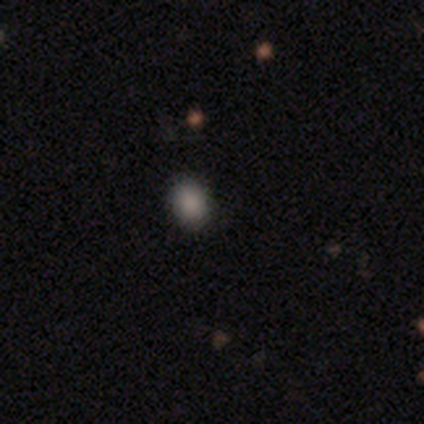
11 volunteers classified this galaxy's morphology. Smooth or featured?
  - smooth: 91% *
  - star or artifact: 9%
  - featured or disk: 0%
How rounded?
  - in between: 70% *
  - round: 30%
  - cigar-shaped: 0%
Merging?
  - none: 90% *
  - minor disturbance: 10%
  - major disturbance: 0%
  - merger: 0%